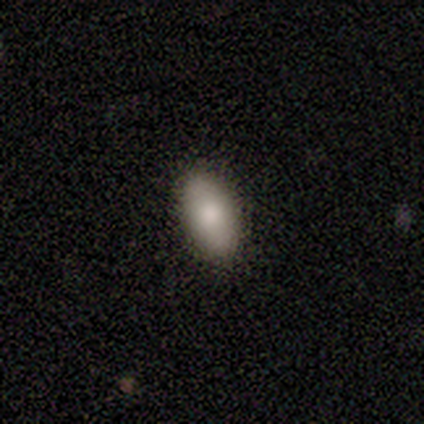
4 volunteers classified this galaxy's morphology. This is possibly a smooth galaxy (50%, tied with star or artifact). How rounded: clearly in between (100%). Merging: clearly none (100%).